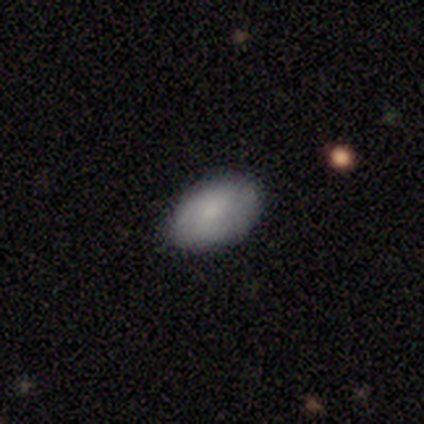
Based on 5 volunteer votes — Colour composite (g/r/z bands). It shows a smooth galaxy with no disk features (40%, tied with featured or disk) that is in between round and cigar-shaped (100%). Merging: none (100%).